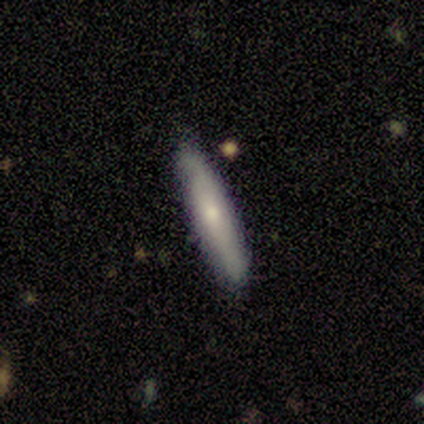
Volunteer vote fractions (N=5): Smooth or featured: smooth — 80% (featured or disk — 20%)
How rounded: cigar-shaped — 100%
Merging: none — 80% (merger — 20%)